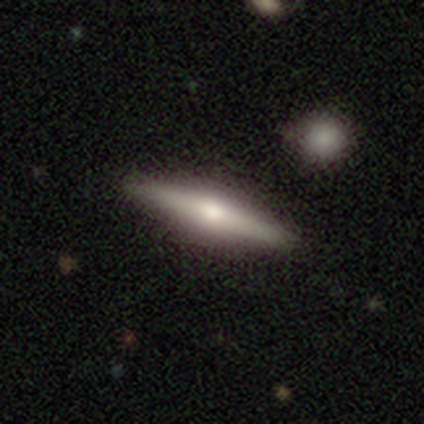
This is likely a smooth galaxy (60%). How rounded: likely cigar-shaped (67%). Merging: clearly none (100%).